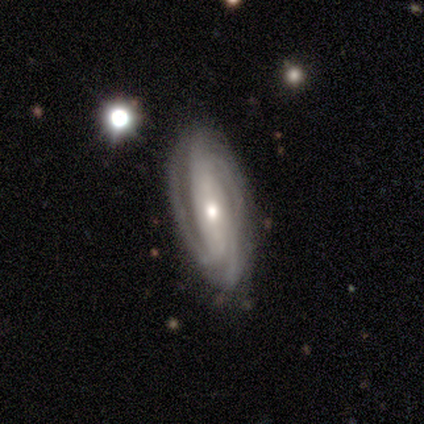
featured or disk 100%, smooth 0%, star or artifact 0%. Down the decision tree: edge-on disk — no (80%); bar — weak (50%); spiral arms — yes (100%); spiral arm count — 3 (50%, tied with can't tell); spiral winding — tight (75%); bulge size — moderate (50%, tied with small); merging — none (80%).